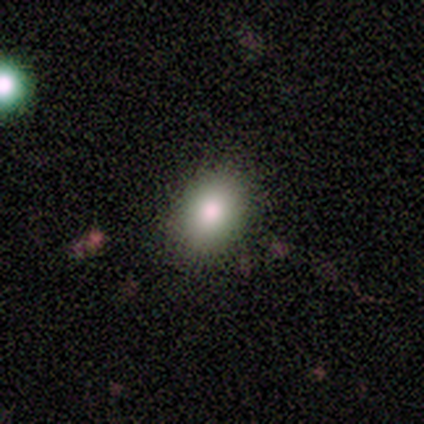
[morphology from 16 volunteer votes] This is likely a smooth galaxy (62%). How rounded: likely in between (70%). Merging: clearly none (85%).